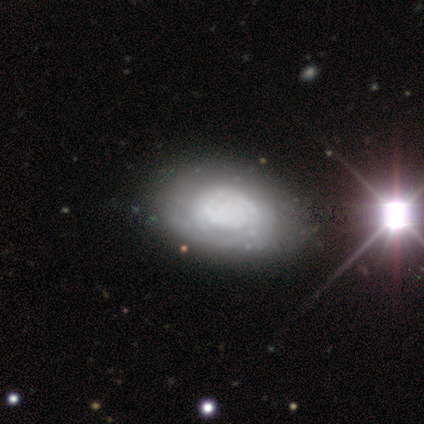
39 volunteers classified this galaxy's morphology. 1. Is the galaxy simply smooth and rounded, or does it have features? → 62% featured or disk, 36% smooth, 3% star or artifact.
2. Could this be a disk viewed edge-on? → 92% no, 8% yes.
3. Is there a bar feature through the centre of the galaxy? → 95% no, 5% weak, 0% strong.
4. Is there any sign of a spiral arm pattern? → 64% yes, 36% no.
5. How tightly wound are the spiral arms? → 86% tight, 7% medium, 7% loose.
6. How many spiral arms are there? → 64% can't tell, 29% 2, 7% 1, 0% 3, 0% 4, 0% more than 4.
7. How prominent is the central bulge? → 59% none, 18% large, 14% moderate, 5% dominant, 5% small.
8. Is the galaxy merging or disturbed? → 53% none, 24% minor disturbance, 16% major disturbance, 8% merger.